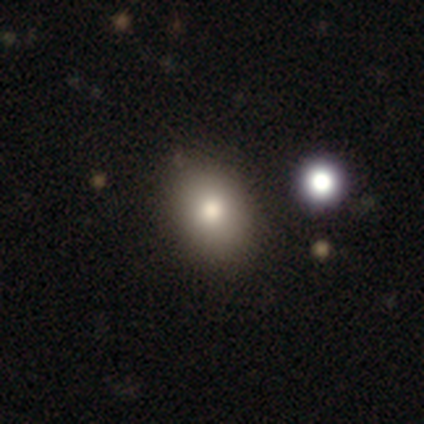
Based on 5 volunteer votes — Volunteers were most divided on "smooth or featured": smooth: 60%, featured or disk: 40%, star or artifact: 0%. More confident: merging — none (100%); how rounded — in between (67%).